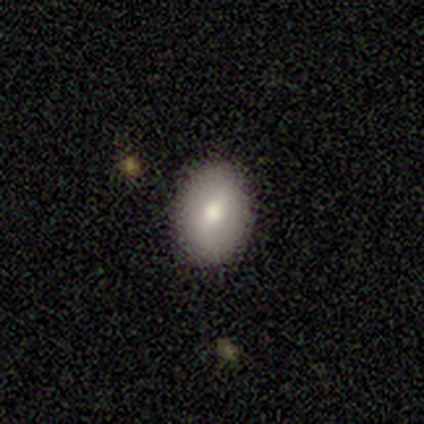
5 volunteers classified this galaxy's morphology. This appears to be a smooth galaxy with no disk features (80%) that is round (50%, tied with in between). Merging: none (100%).